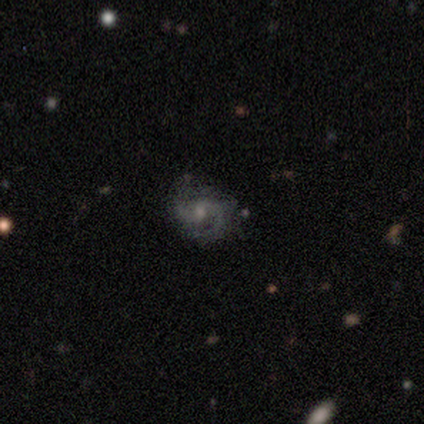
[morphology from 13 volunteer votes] smooth-or-featured: featured or disk: 85% | star or artifact: 15% | smooth: 0%
  disk-edge-on: no: 100% | yes: 0%
    bar: no: 73% | weak: 18% | strong: 9%
    has-spiral-arms: yes: 91% | no: 9%
      spiral-winding: medium: 50% | loose: 30% | tight: 20%
      spiral-arm-count: 2: 90% | 3: 10% | 1: 0% | 4: 0% | more than 4: 0% | can't tell: 0%
    bulge-size: moderate: 45% | small: 36% | none: 18% | dominant: 0% | large: 0%
  merging: none: 45% | minor disturbance: 36% | major disturbance: 18% | merger: 0%